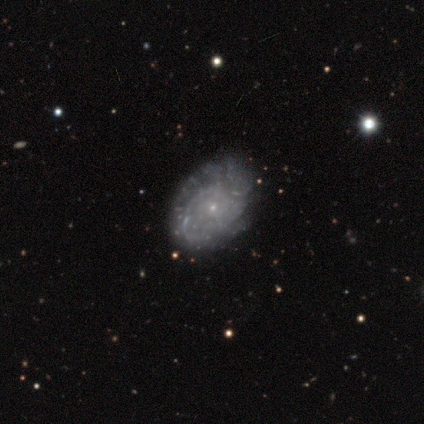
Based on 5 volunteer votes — Morphology: type=featured or disk (60%); edge-on=no (100%); bar=weak (100%); spiral arms=yes (100%); winding=tight (67%); arm count=4 (67%); bulge=small (100%); merging=none (100%).